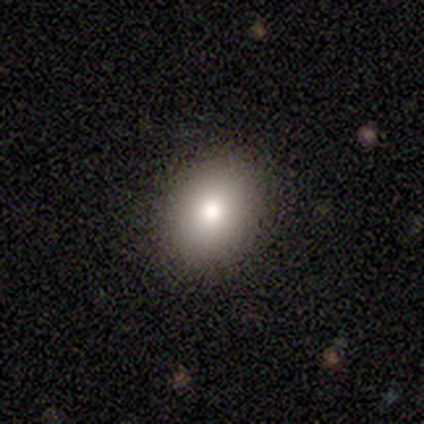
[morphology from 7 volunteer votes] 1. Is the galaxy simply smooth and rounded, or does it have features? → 57% smooth, 29% featured or disk, 14% star or artifact.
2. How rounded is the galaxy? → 75% in between, 25% round, 0% cigar-shaped.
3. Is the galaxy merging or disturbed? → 100% none, 0% minor disturbance, 0% major disturbance, 0% merger.